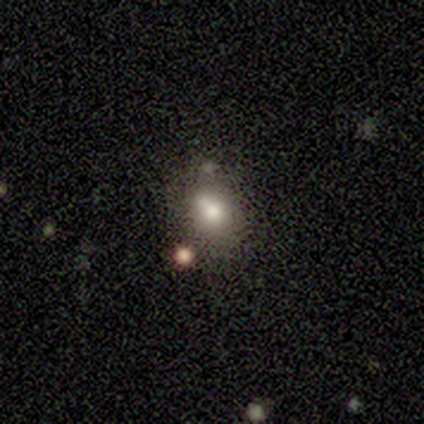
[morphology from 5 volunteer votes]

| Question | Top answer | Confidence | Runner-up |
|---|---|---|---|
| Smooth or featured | smooth | 60% | featured or disk (20%) |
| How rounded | round | 67% | in between (33%) |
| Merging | none | 50% | minor disturbance (25%) |